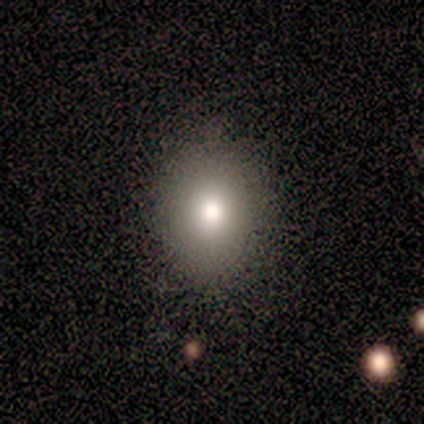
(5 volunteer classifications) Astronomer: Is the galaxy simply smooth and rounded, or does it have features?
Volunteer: smooth — 40%, tied with star or artifact at 40%.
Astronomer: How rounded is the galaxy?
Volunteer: in between — 100%.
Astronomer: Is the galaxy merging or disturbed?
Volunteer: none — 100%.